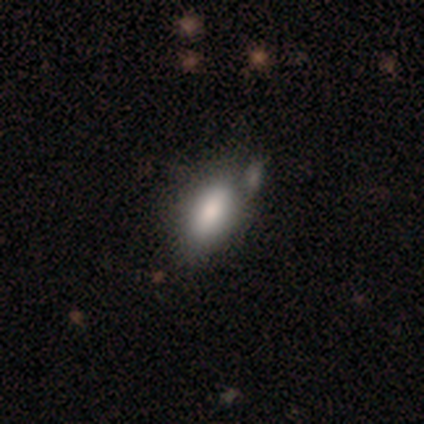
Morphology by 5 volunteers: A smooth galaxy with no disk features (60%) that is in between round and cigar-shaped (100%). Merging: minor disturbance (60%).